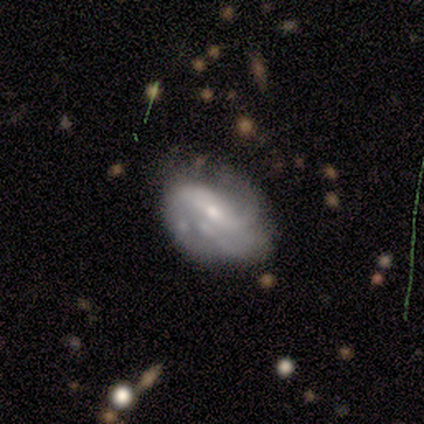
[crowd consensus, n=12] featured or disk 75%, smooth 25%, star or artifact 0%. Down the decision tree: edge-on disk — no (89%); bar — strong (38%, tied with weak); spiral arms — yes (88%); spiral arm count — 2 (43%, tied with can't tell); spiral winding — tight (43%, tied with medium); bulge size — moderate (62%); merging — none (50%).